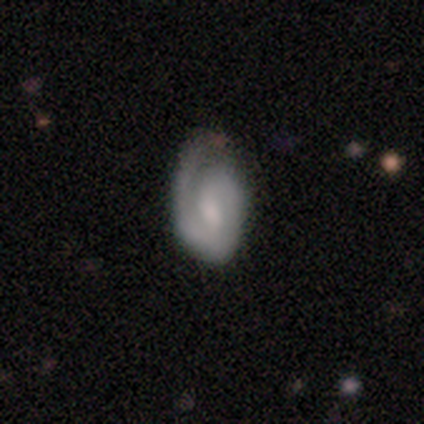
smooth_or_featured: featured or disk (p=0.67) [alt: smooth p=0.33]
disk_edge_on: no (p=0.96) [alt: yes p=0.04]
bar: no (p=0.56) [alt: weak p=0.36]
has_spiral_arms: yes (p=0.96) [alt: no p=0.04]
spiral_winding: tight (p=0.50) [alt: medium p=0.38]
spiral_arm_count: 1 (p=0.46) [alt: 2 p=0.42]
bulge_size: moderate (p=0.44) [alt: small p=0.36]
merging: none (p=0.46) [alt: minor disturbance p=0.31]